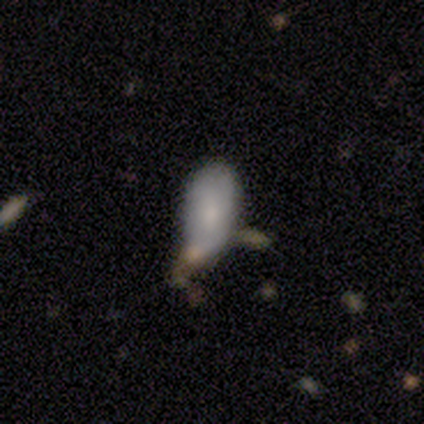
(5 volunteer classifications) Volunteers were most divided on "merging": merger: 50%, none: 25%, minor disturbance: 25%, major disturbance: 0%. More confident: how rounded — in between (67%); smooth or featured — smooth (60%).